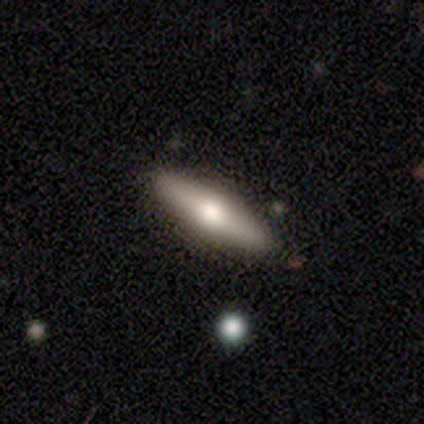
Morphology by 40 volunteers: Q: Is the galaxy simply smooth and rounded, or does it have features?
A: featured or disk — 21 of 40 (52%).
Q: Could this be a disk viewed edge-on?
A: yes — 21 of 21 (100%).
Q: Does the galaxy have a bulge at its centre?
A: rounded — 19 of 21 (90%).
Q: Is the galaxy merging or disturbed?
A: none — 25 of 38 (66%).